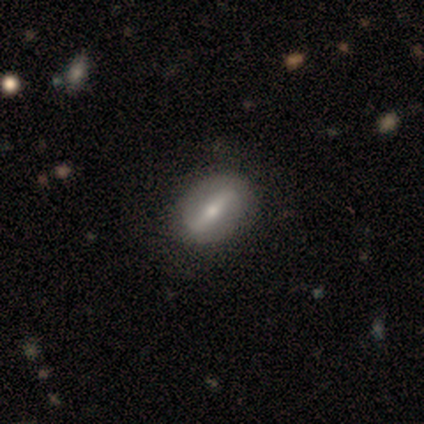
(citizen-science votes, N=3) A smooth galaxy with no disk features (67%) that is round (100%).

Vote fractions:
- Smooth or featured? smooth: 67% / featured or disk: 33% / star or artifact: 0%
- How rounded? round: 100% / in between: 0% / cigar-shaped: 0%
- Merging? none: 100% / minor disturbance: 0% / major disturbance: 0% / merger: 0%